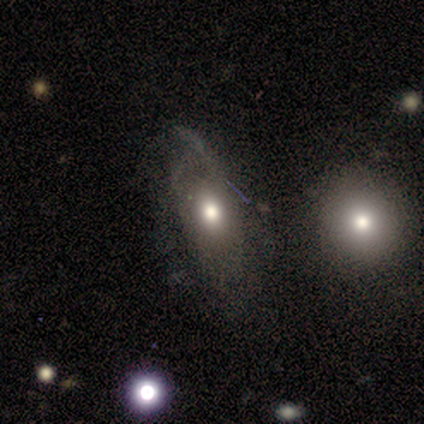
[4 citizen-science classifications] Q: Smooth or featured?
A: star or artifact (50%); runner-up: smooth (25%)